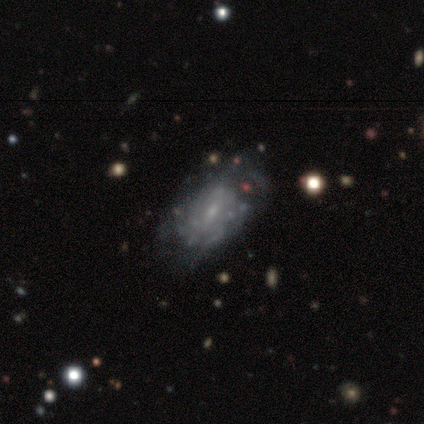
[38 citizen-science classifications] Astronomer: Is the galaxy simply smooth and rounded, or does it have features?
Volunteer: featured or disk — 79%.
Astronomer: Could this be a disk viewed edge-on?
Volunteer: no — 93%.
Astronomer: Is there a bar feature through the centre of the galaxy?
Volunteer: no — 50% (runner-up: weak, 43%).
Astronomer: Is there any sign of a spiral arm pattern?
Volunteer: yes — 57% (runner-up: no, 43%).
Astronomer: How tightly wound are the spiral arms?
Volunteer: tight — 44%, tied with medium at 44%.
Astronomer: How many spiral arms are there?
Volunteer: can't tell — 62%.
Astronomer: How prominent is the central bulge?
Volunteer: small — 61%.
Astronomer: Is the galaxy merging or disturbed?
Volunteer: none — 61%.